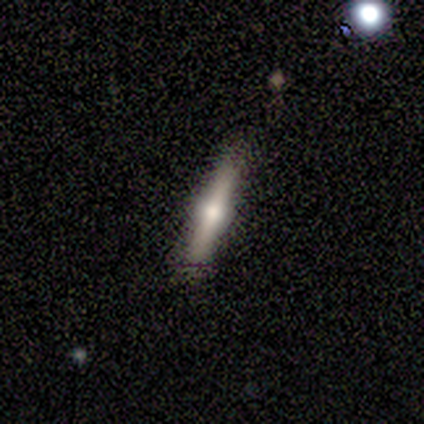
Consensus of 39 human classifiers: Smooth or featured? featured or disk (62%)
Edge-on disk? yes (100%)
Edge-on bulge? rounded (92%)
Merging? none (84%)